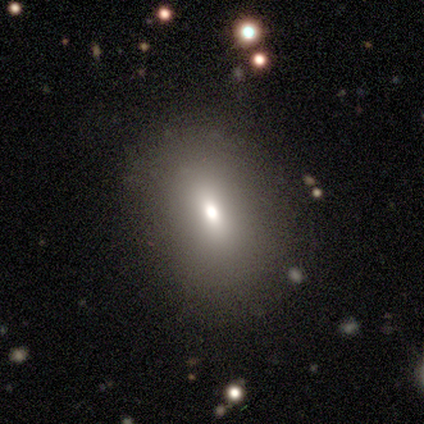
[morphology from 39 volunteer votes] Smooth or featured? smooth (64%)
How rounded? in between (60%)
Merging? none (77%)